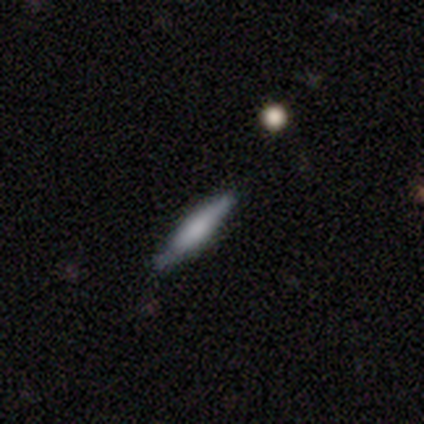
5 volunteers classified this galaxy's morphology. Smooth or featured: smooth — 80% (featured or disk — 20%)
How rounded: cigar-shaped — 100%
Merging: none — 60% (minor disturbance — 40%)